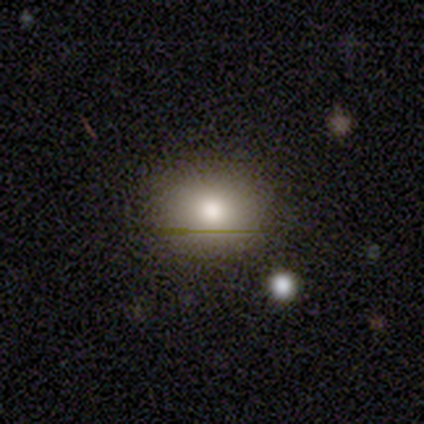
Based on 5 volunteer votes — Smooth or featured: smooth — 60% (star or artifact — 40%)
How rounded: round — 67% (in between — 33%)
Merging: none — 100%